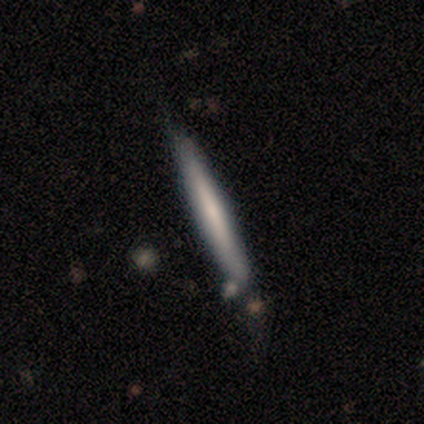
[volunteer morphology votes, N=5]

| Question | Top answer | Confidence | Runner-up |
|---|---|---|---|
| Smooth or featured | smooth | 60% | featured or disk (40%) |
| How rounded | cigar-shaped | 100% | — |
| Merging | none | 100% | — |